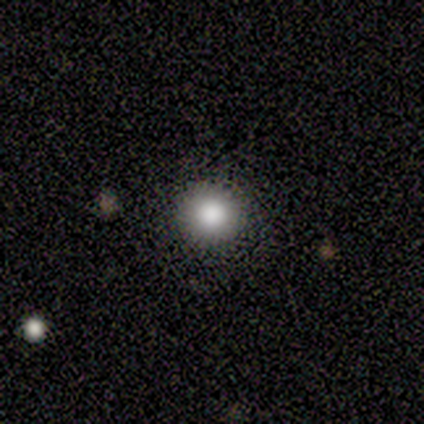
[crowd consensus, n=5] Smooth or featured? smooth (80%)
How rounded? round (100%)
Merging? none (80%)